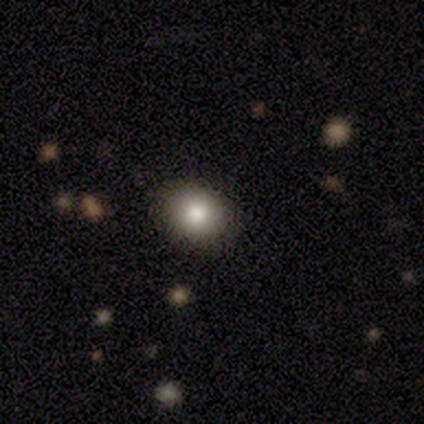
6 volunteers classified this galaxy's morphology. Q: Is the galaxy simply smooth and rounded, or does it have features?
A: smooth — 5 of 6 (83%).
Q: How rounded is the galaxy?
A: round — 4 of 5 (80%).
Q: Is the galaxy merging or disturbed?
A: none — 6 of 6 (100%).